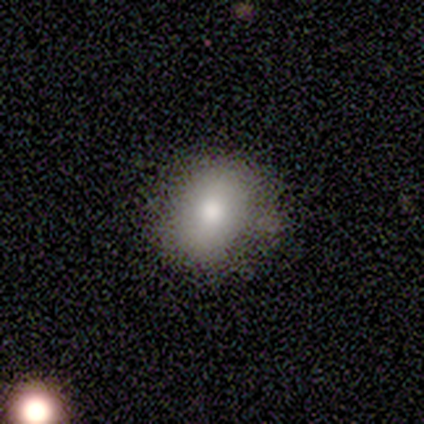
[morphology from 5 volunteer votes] Smooth or featured? smooth (100%)
How rounded? round (80%)
Merging? none (80%)